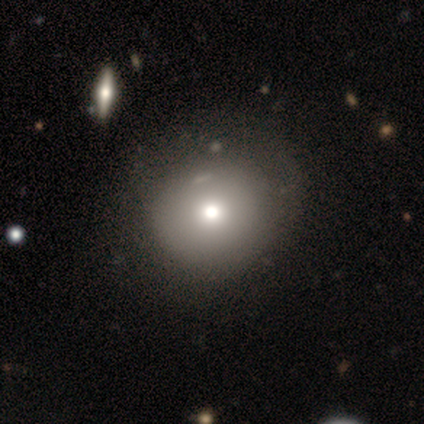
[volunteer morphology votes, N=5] Smooth or featured? smooth (80%)
How rounded? round (100%)
Merging? none (100%)